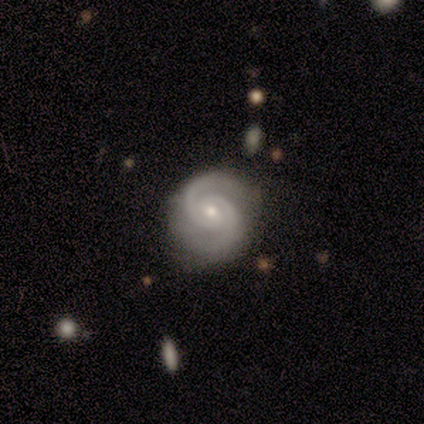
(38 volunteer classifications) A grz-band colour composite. It shows a featured or disk galaxy (95%) with no bar (67%), 2 (97%) tight (58%) spiral arms (100%) and a small central bulge (58%). Merging: none (57%).